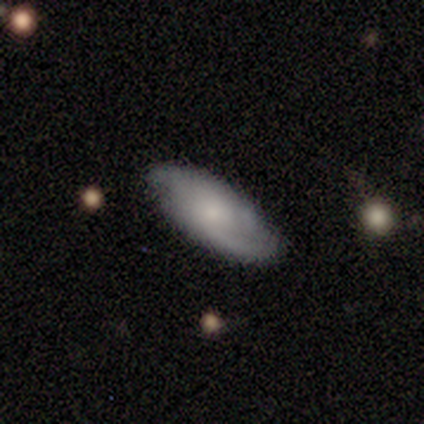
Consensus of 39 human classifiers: This appears to be a featured or disk galaxy (54%) with no bar (88%), 2 (62%) tight (38%, tied with medium) spiral arms (94%) and a moderate central bulge (53%). Merging: none (81%).